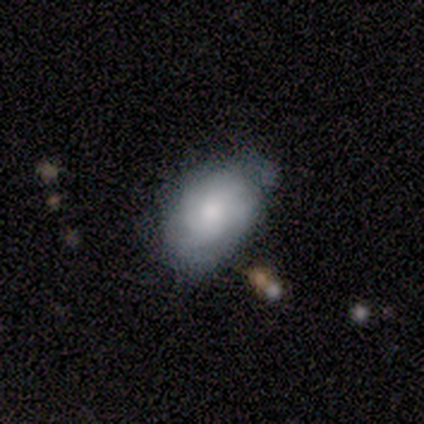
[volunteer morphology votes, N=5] smooth 40% (tied), featured or disk 40% (tied), star or artifact 20%. Down the decision tree: how rounded — in between (100%); merging — none (50%).